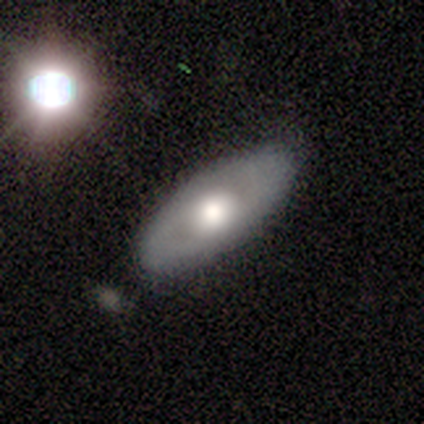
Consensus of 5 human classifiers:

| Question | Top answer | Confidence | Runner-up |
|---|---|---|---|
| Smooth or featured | smooth | 80% | featured or disk (20%) |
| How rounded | in between | 75% | cigar-shaped (25%) |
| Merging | none | 80% | merger (20%) |